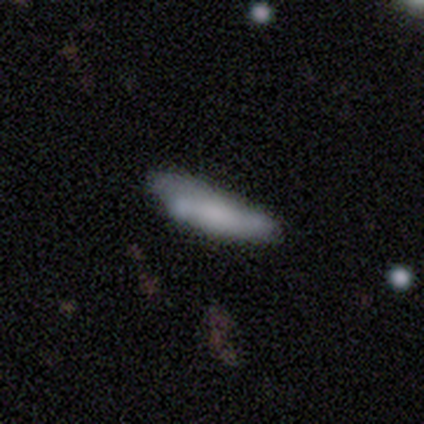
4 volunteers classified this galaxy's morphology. smooth-or-featured: smooth: 75% | featured or disk: 25% | star or artifact: 0%
  how-rounded: cigar-shaped: 67% | in between: 33% | round: 0%
  merging: minor disturbance: 75% | none: 25% | major disturbance: 0% | merger: 0%